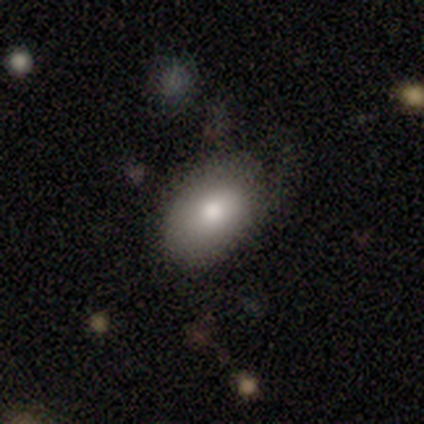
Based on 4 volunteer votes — Smooth or featured: smooth — 50% (featured or disk — 25%)
How rounded: round — 50% (tied with in between — 50%)
Merging: none — 100%